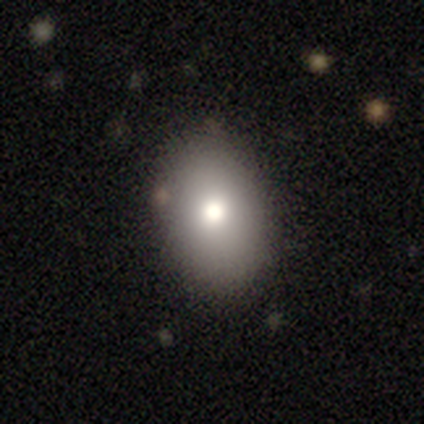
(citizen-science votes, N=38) A smooth galaxy with no disk features (74%) that is in between round and cigar-shaped (71%). Merging: none (82%).